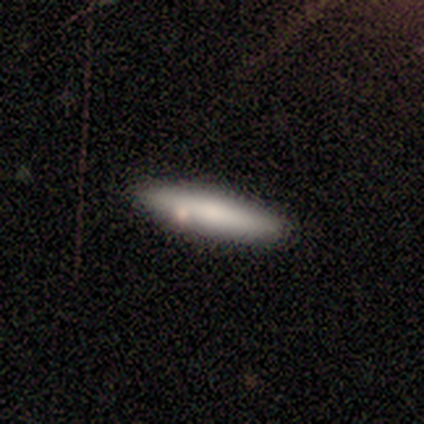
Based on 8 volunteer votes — A smooth galaxy with no disk features (75%) that is cigar-shaped (83%).

Vote fractions:
- Smooth or featured? smooth: 75% / featured or disk: 25% / star or artifact: 0%
- How rounded? cigar-shaped: 83% / in between: 17% / round: 0%
- Merging? none: 88% / minor disturbance: 12% / major disturbance: 0% / merger: 0%